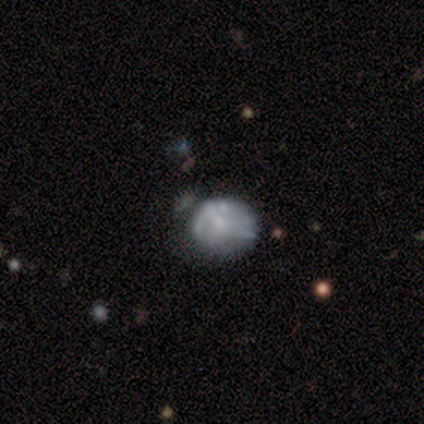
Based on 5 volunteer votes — A smooth galaxy with no disk features (80%) that is round (50%, tied with in between). Merging: none (75%).